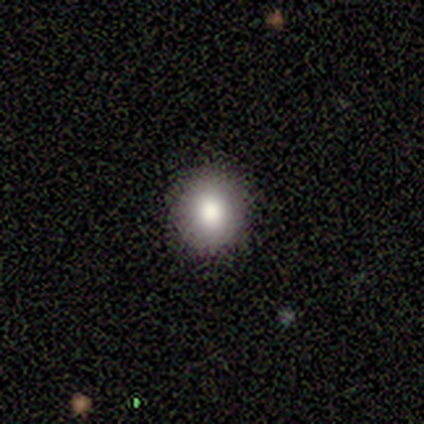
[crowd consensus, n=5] Smooth or featured? smooth (100%)
How rounded? round (80%)
Merging? none (100%)